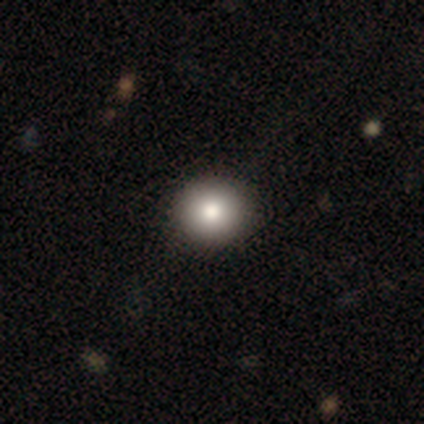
This is clearly a smooth galaxy (100%). How rounded: clearly round (100%). Merging: clearly none (100%).